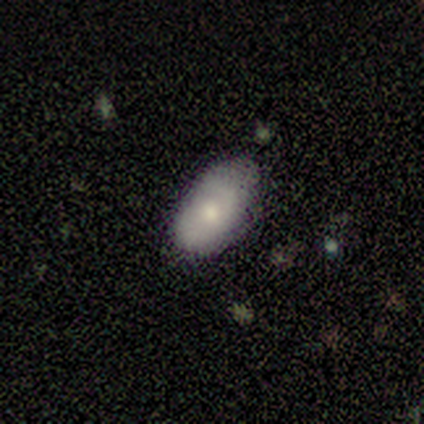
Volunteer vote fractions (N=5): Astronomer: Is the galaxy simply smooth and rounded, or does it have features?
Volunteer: smooth — 80%.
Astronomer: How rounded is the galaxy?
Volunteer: in between — 100%.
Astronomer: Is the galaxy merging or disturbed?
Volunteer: none — 80%.